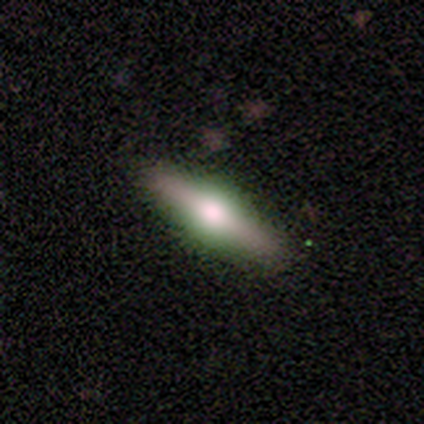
This is likely a featured or disk galaxy (60%). It is clearly viewed edge-on (100%). Edge-on bulge: clearly rounded (100%). Merging: clearly none (100%).